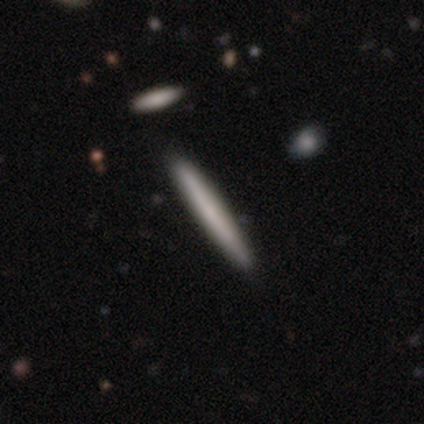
This is likely a smooth galaxy (60%). How rounded: clearly cigar-shaped (100%). Merging: clearly none (100%).